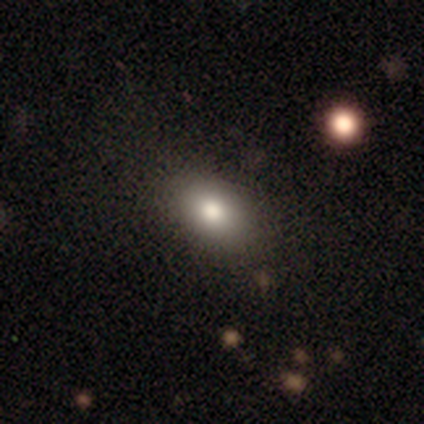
smooth 82%, star or artifact 10%, featured or disk 8%. Down the decision tree: how rounded — in between (88%); merging — none (78%).